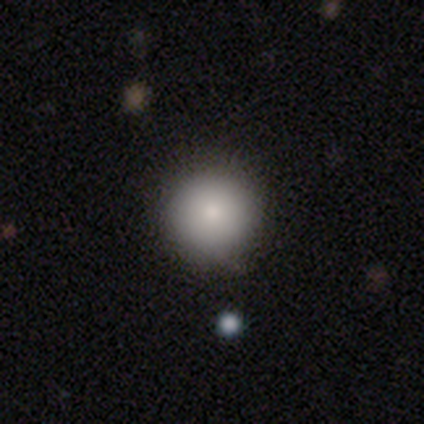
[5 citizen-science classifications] Smooth or featured: smooth — 80% (featured or disk — 20%)
How rounded: round — 100%
Merging: none — 60% (minor disturbance — 20%)